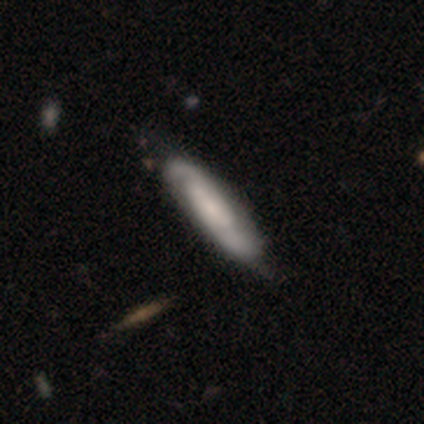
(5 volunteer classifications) Smooth or featured? featured or disk (80%)
Edge-on disk? no (75%)
Bar? no (67%)
Spiral arms? yes (100%)
Spiral winding? medium (67%)
Spiral arm count? 2 (67%)
Bulge size? dominant (33%, tied with large and moderate)
Merging? none (50%, tied with minor disturbance)